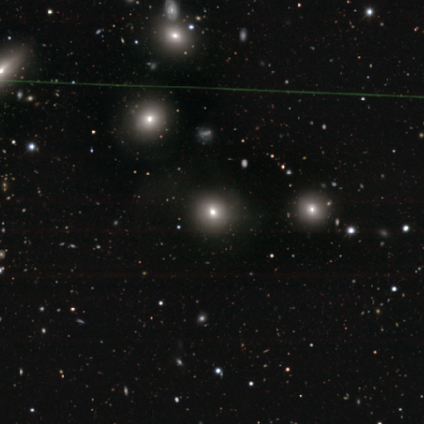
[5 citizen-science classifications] Morphology: type=smooth (40%, tied with star or artifact); roundness=round (100%); merging=none (67%).